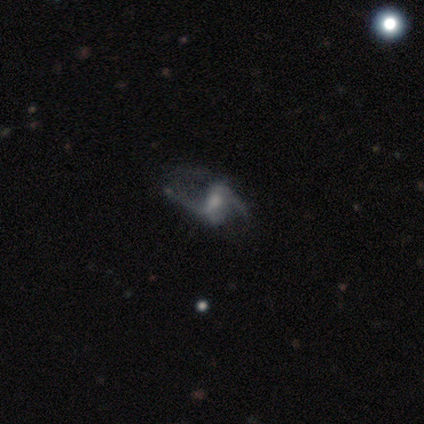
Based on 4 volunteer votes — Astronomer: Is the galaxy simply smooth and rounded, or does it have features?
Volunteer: featured or disk — 100%.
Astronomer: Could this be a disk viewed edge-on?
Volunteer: no — 100%.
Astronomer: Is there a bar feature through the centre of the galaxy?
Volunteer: weak — 75%.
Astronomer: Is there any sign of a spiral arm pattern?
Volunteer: yes — 75%.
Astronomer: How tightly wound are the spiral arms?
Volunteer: loose — 67%.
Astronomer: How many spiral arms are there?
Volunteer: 2 — 67%.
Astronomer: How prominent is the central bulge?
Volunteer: moderate — 50%, tied with small at 50%.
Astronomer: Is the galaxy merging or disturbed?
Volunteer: minor disturbance — 50%, tied with major disturbance at 50%.